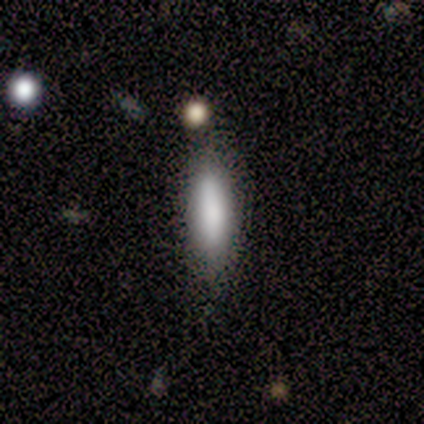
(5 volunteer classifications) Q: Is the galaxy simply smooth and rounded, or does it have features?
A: smooth — 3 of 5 (60%).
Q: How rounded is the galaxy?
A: cigar-shaped — 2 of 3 (67%).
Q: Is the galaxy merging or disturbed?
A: none — 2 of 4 (50%).